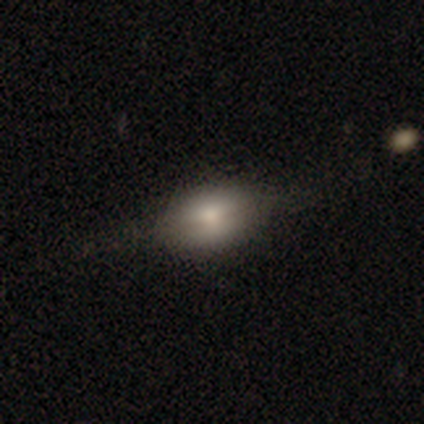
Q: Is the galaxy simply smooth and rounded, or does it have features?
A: featured or disk — 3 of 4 (75%).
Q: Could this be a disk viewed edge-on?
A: yes — 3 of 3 (100%).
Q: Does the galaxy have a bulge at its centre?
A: rounded — 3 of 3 (100%).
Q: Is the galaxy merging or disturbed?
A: none — 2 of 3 (67%).